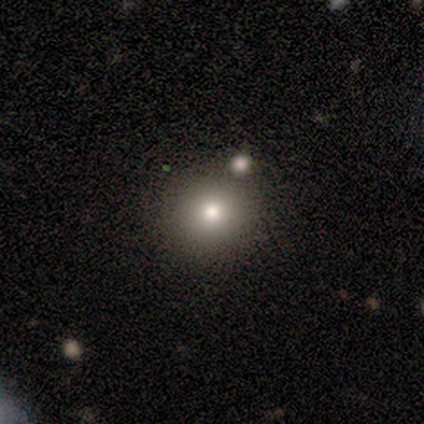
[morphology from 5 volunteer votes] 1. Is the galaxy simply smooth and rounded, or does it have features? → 100% smooth, 0% featured or disk, 0% star or artifact.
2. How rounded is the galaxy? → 80% round, 20% in between, 0% cigar-shaped.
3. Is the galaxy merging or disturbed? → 80% none, 20% merger, 0% minor disturbance, 0% major disturbance.